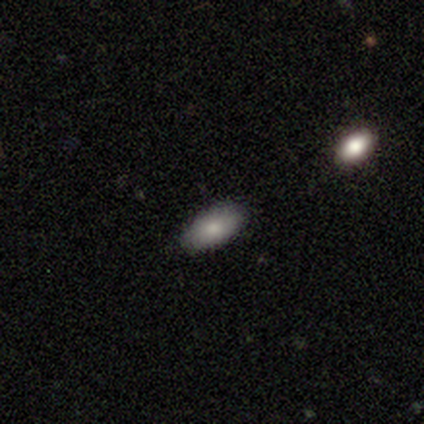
Smooth or featured?
  - smooth: 75% *
  - star or artifact: 25%
  - featured or disk: 0%
How rounded?
  - in between: 100% *
  - round: 0%
  - cigar-shaped: 0%
Merging?
  - none: 67% *
  - major disturbance: 33%
  - minor disturbance: 0%
  - merger: 0%